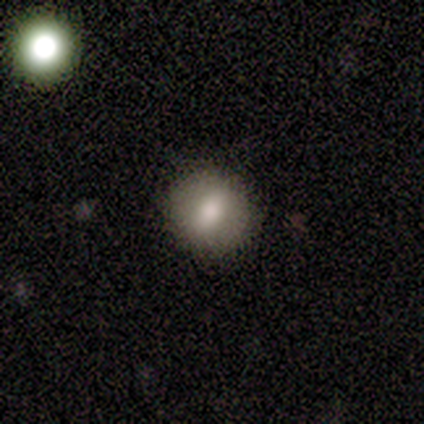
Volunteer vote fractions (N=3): Overall: smooth (100%). How rounded: round (67%; in between 33%). Merging: none (100%).